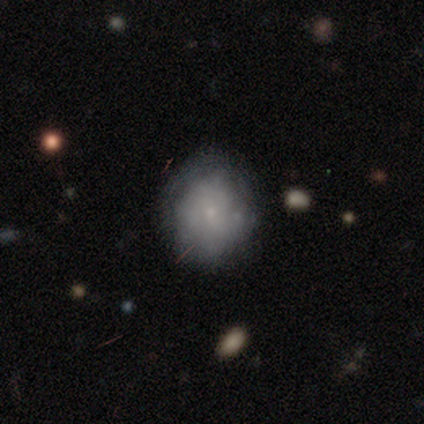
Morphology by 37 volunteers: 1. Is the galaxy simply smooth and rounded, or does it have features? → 51% featured or disk, 32% smooth, 16% star or artifact.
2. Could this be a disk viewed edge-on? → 95% no, 5% yes.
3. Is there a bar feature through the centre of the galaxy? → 89% no, 11% weak, 0% strong.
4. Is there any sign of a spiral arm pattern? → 56% no, 44% yes.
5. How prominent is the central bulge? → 78% small, 22% none, 0% dominant, 0% large, 0% moderate.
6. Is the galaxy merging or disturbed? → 81% none, 16% minor disturbance, 3% major disturbance, 0% merger.